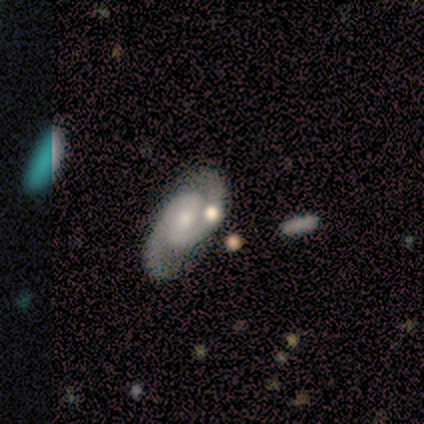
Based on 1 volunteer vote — Smooth or featured: featured or disk — 100%
Edge-on disk: no — 100%
Bar: weak — 100%
Spiral arms: yes — 100%
Spiral winding: tight — 100%
Spiral arm count: 2 — 100%
Bulge size: none — 100%
Merging: minor disturbance — 100%